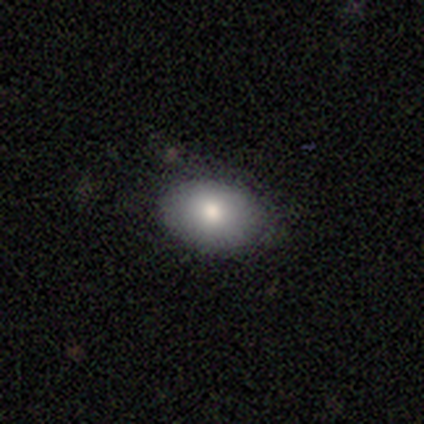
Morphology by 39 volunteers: Smooth or featured: smooth — 72% (star or artifact — 15%)
How rounded: in between — 79% (round — 21%)
Merging: none — 82% (minor disturbance — 18%)